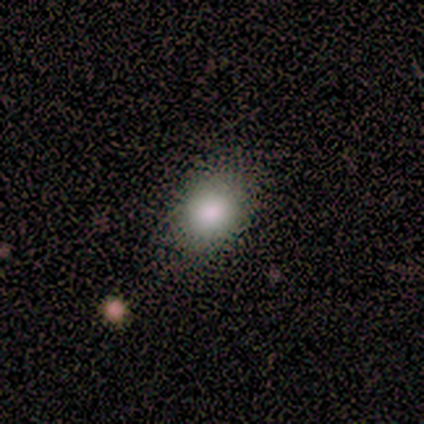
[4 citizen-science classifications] smooth_or_featured: smooth (p=1.00)
how_rounded: in between (p=0.75) [alt: round p=0.25]
merging: none (p=0.75) [alt: minor disturbance p=0.25]